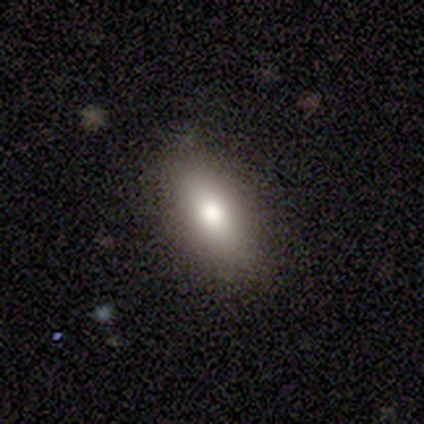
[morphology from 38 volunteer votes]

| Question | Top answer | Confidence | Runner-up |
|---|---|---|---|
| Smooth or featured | smooth | 74% | featured or disk (16%) |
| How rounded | in between | 93% | cigar-shaped (7%) |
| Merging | none | 94% | minor disturbance (3%) |